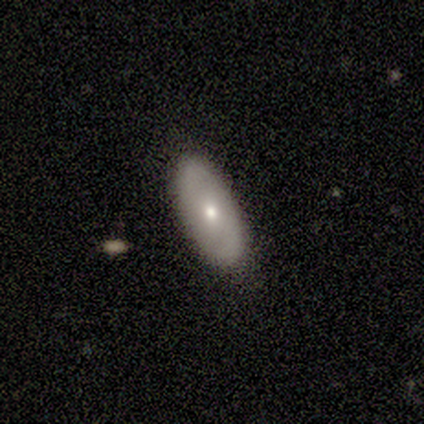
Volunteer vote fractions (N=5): Smooth or featured: smooth — 60% (featured or disk — 40%)
How rounded: in between — 100%
Merging: none — 100%